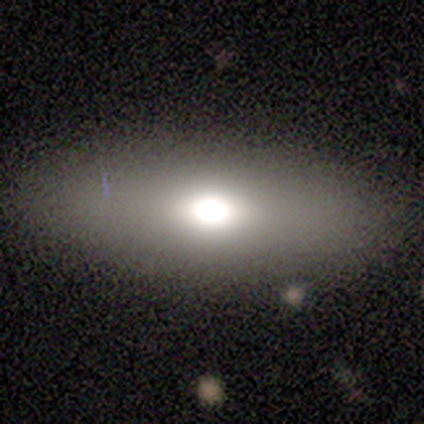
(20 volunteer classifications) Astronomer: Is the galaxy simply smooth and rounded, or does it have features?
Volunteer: smooth — 55% (runner-up: featured or disk, 35%).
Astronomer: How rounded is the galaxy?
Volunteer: in between — 100%.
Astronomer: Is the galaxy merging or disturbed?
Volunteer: none — 89%.